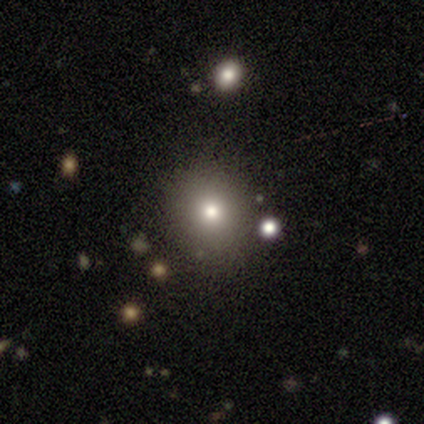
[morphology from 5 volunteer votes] Smooth or featured?
  - smooth: 60% *
  - star or artifact: 40%
  - featured or disk: 0%
How rounded?
  - round: 100% *
  - in between: 0%
  - cigar-shaped: 0%
Merging?
  - none: 100% *
  - minor disturbance: 0%
  - major disturbance: 0%
  - merger: 0%